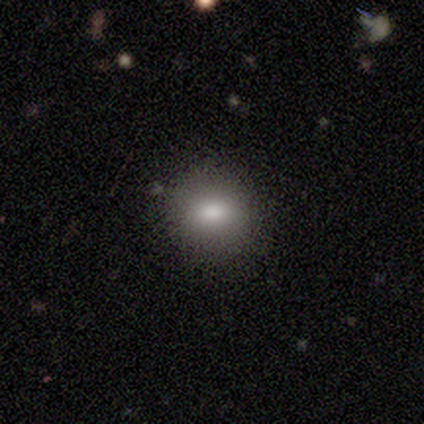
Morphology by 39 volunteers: smooth_or_featured: smooth (p=0.82) [alt: featured or disk p=0.15]
how_rounded: round (p=0.72) [alt: in between p=0.28]
merging: none (p=0.82) [alt: minor disturbance p=0.11]